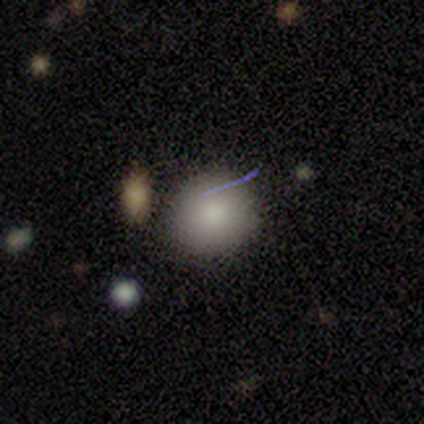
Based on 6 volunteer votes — Volunteers were most divided on "how rounded": round: 83%, in between: 17%, cigar-shaped: 0%. More confident: smooth or featured — smooth (100%); merging — none (100%).